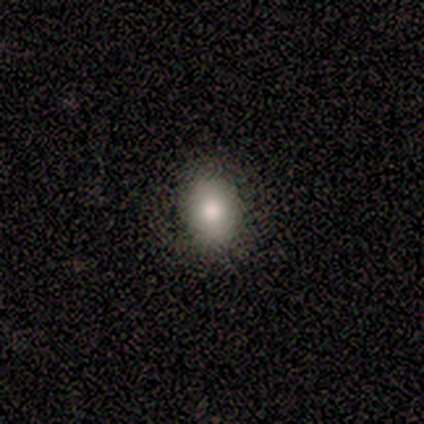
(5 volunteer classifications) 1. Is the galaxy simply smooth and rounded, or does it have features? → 80% smooth, 20% star or artifact, 0% featured or disk.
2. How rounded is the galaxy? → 75% in between, 25% round, 0% cigar-shaped.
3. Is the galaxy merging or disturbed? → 100% none, 0% minor disturbance, 0% major disturbance, 0% merger.